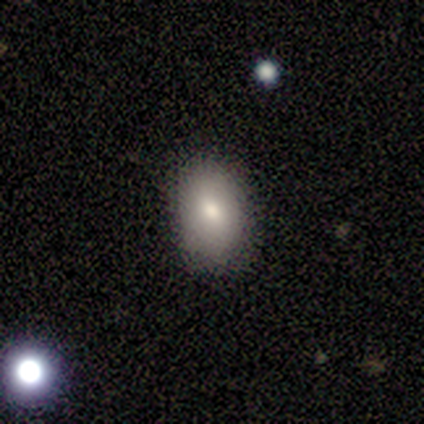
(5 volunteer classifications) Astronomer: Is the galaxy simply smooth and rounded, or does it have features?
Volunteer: smooth — 80%.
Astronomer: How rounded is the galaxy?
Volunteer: in between — 100%.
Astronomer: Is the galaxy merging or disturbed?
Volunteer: none — 60% (runner-up: minor disturbance, 40%).